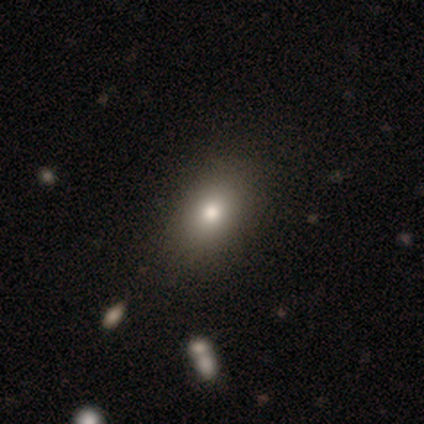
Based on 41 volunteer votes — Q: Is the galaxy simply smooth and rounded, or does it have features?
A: smooth — 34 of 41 (83%).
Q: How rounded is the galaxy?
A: in between — 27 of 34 (79%).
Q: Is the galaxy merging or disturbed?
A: none — 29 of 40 (72%).